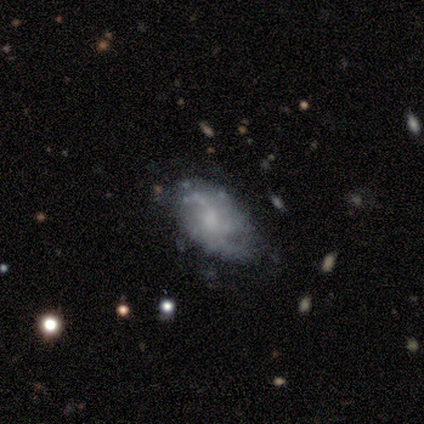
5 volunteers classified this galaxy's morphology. This appears to be a smooth galaxy with no disk features (40%, tied with featured or disk) that is in between round and cigar-shaped (100%). Merging: none (75%).